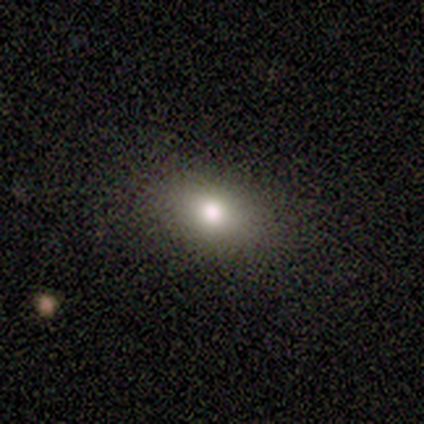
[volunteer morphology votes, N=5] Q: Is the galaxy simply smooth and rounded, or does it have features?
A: smooth — 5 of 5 (100%).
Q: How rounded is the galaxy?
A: in between — 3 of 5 (60%).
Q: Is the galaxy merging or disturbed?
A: none — 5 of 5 (100%).